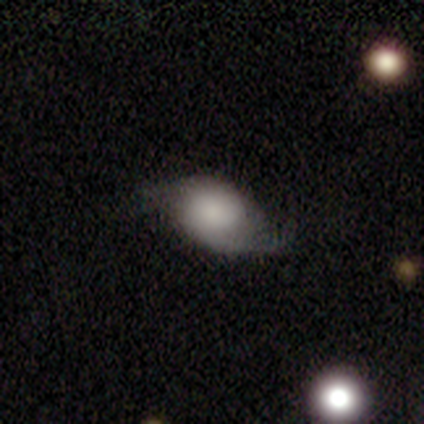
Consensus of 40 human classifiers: Smooth or featured? 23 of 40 (57%) said smooth. How rounded? 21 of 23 (91%) said in between. Merging? 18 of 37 (49%) said none.